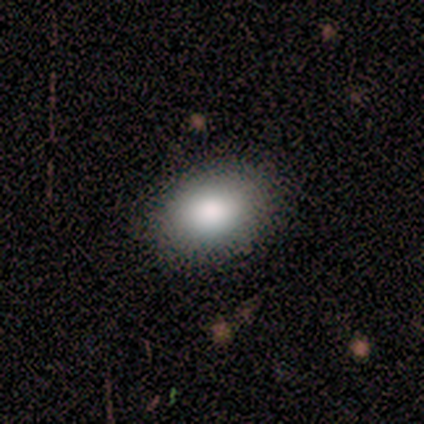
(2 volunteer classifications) A smooth galaxy with no disk features (50%, tied with star or artifact) that is in between round and cigar-shaped (100%).

Vote fractions:
- Smooth or featured? smooth: 50% (tied) / star or artifact: 50% (tied) / featured or disk: 0%
- How rounded? in between: 100% / round: 0% / cigar-shaped: 0%
- Merging? none: 100% / minor disturbance: 0% / major disturbance: 0% / merger: 0%